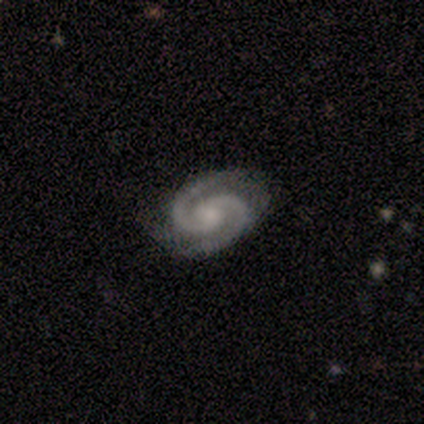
smooth-or-featured: featured or disk: 100% | smooth: 0% | star or artifact: 0%
  disk-edge-on: no: 100% | yes: 0%
    bar: no: 80% | weak: 20% | strong: 0%
    has-spiral-arms: yes: 100% | no: 0%
      spiral-winding: tight: 60% | medium: 40% | loose: 0%
      spiral-arm-count: 2: 100% | 1: 0% | 3: 0% | 4: 0% | more than 4: 0% | can't tell: 0%
    bulge-size: moderate: 40% (tied) | none: 40% (tied) | small: 20% | dominant: 0% | large: 0%
  merging: none: 60% | minor disturbance: 40% | major disturbance: 0% | merger: 0%